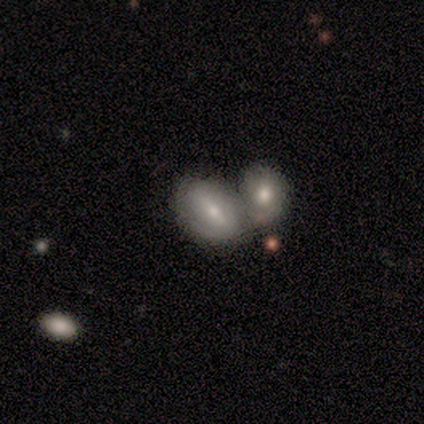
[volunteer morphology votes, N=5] featured or disk 80%, smooth 20%, star or artifact 0%. Down the decision tree: edge-on disk — no (75%); bar — strong (33%, tied with weak and no); spiral arms — yes (67%); spiral arm count — 2 (50%, tied with can't tell); spiral winding — medium (100%); bulge size — small (67%); merging — merger (40%).